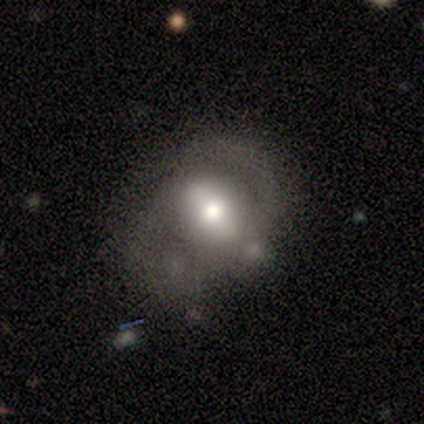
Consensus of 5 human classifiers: Smooth or featured?
  - featured or disk: 80% *
  - smooth: 20%
  - star or artifact: 0%
Edge-on disk?
  - no: 100% *
  - yes: 0%
Bar?
  - weak: 50% *
  - strong: 25%
  - no: 25%
Spiral arms?
  - yes: 75% *
  - no: 25%
Spiral winding?
  - medium: 67% *
  - tight: 33%
  - loose: 0%
Spiral arm count?
  - 2: 100% *
  - 1: 0%
  - 3: 0%
  - 4: 0%
  - more than 4: 0%
  - can't tell: 0%
Bulge size?
  - moderate: 50% *
  - large: 25%
  - small: 25%
  - dominant: 0%
  - none: 0%
Merging?
  - none: 60% *
  - minor disturbance: 40%
  - major disturbance: 0%
  - merger: 0%